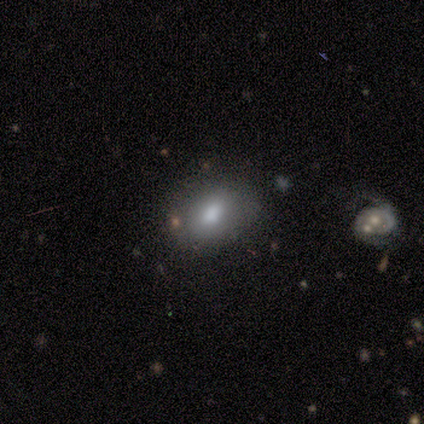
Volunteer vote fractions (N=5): Morphology: type=smooth (80%); roundness=in between (100%); merging=none (60%).